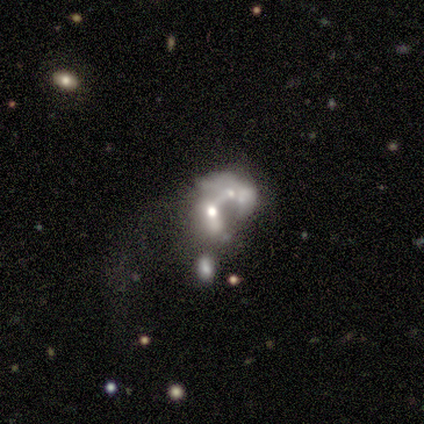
Volunteers were most divided on "bulge size" (2-way tie): moderate: 40%, small: 40%, large: 20%, dominant: 0%, none: 0%. More confident: smooth or featured — featured or disk (100%); edge-on disk — no (100%); spiral arms — no (100%); bar — no (60%); merging — merger (60%).